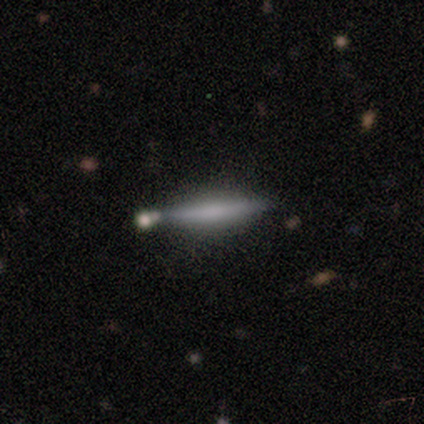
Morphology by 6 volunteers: smooth 83%, featured or disk 17%, star or artifact 0%. Down the decision tree: how rounded — cigar-shaped (100%); merging — none (83%).